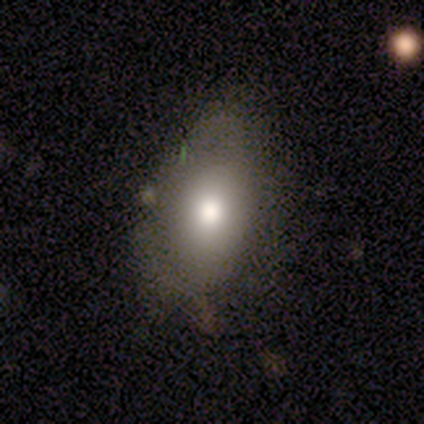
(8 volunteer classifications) Smooth or featured? smooth (62%)
How rounded? in between (80%)
Merging? none (67%)